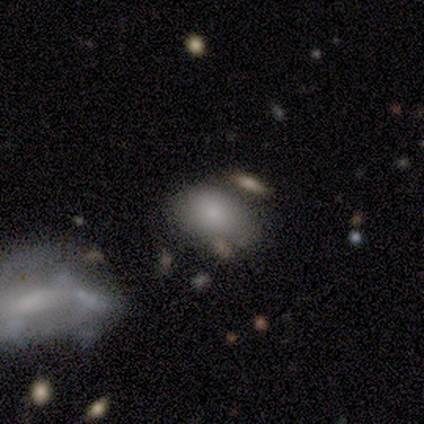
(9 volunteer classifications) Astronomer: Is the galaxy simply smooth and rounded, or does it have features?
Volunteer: smooth — 89%.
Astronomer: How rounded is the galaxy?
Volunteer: in between — 75%.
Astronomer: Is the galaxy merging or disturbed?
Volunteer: none — 62%.